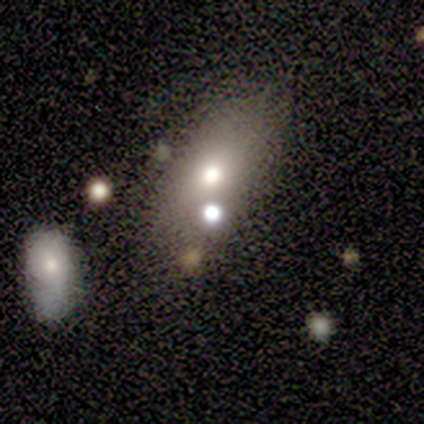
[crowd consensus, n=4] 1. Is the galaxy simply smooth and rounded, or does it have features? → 50% smooth (tied), 50% featured or disk (tied), 0% star or artifact.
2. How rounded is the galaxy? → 100% in between, 0% round, 0% cigar-shaped.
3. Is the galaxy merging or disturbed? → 50% none (tied), 50% merger (tied), 0% minor disturbance, 0% major disturbance.